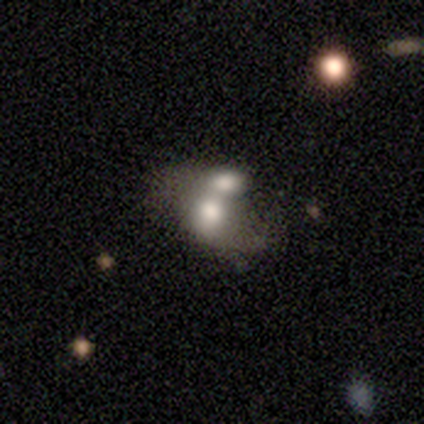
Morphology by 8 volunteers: Smooth or featured?
  - featured or disk: 62% *
  - smooth: 38%
  - star or artifact: 0%
Edge-on disk?
  - no: 100% *
  - yes: 0%
Bar?
  - no: 80% *
  - strong: 20%
  - weak: 0%
Spiral arms?
  - no: 100% *
  - yes: 0%
Bulge size?
  - moderate: 80% *
  - small: 20%
  - dominant: 0%
  - large: 0%
  - none: 0%
Merging?
  - merger: 62% *
  - none: 25%
  - minor disturbance: 12%
  - major disturbance: 0%